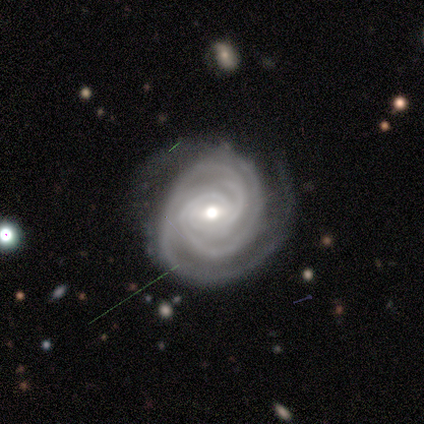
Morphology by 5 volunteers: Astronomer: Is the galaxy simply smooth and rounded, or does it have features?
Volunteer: featured or disk — 100%.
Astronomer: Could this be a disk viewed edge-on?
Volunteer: no — 80%.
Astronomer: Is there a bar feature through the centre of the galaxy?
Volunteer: weak — 75%.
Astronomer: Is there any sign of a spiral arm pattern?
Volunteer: yes — 100%.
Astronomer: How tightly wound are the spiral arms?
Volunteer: tight — 75%.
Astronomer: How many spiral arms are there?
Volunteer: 3 — 75%.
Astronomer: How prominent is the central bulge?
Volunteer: moderate — 100%.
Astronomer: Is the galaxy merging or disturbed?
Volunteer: none — 80%.